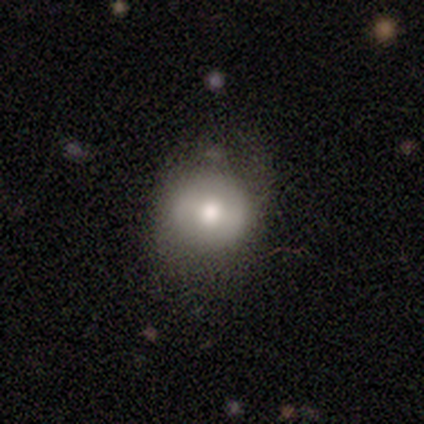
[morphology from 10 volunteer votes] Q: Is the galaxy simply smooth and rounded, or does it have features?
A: smooth — 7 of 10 (70%).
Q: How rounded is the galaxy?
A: round — 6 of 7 (86%).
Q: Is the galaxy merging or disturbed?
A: none — 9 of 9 (100%).